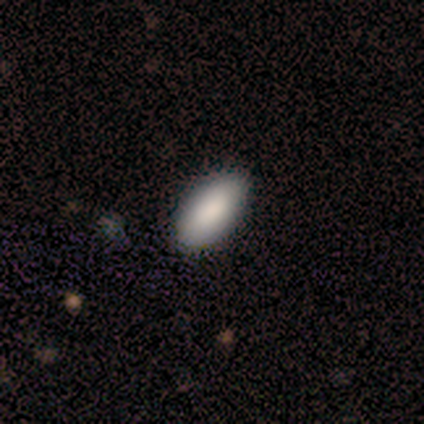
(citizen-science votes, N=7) Volunteers were most divided on "merging": none: 86%, minor disturbance: 14%, major disturbance: 0%, merger: 0%. More confident: smooth or featured — smooth (100%); how rounded — in between (100%).